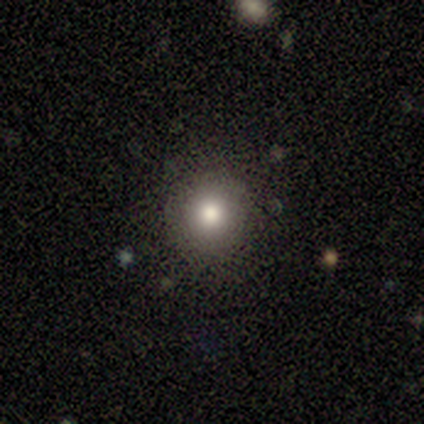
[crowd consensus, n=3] Overall: smooth (67%; star or artifact 33%). How rounded: round (100%). Merging: none (100%).